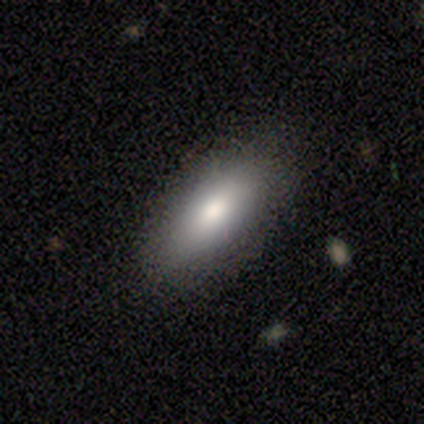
Smooth or featured: smooth — 80% (star or artifact — 20%)
How rounded: in between — 75% (cigar-shaped — 25%)
Merging: none — 100%